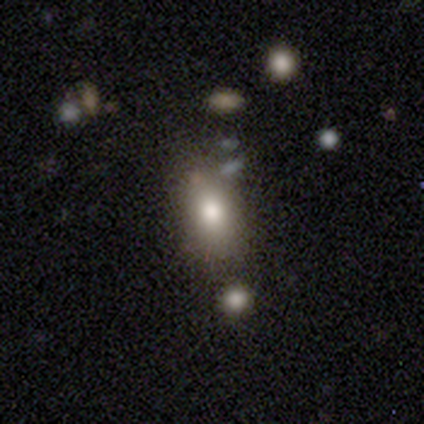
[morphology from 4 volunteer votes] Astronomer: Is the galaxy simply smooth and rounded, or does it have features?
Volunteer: smooth — 100%.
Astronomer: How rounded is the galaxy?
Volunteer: in between — 100%.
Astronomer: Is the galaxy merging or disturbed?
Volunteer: none — 100%.